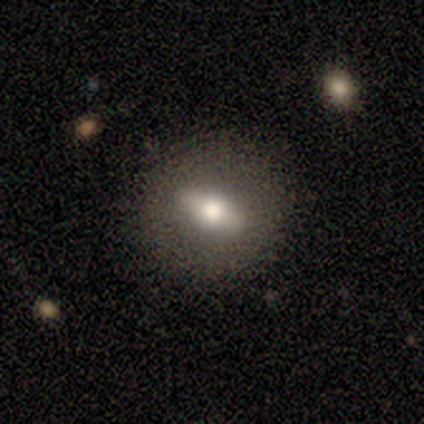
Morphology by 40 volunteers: This is possibly a featured or disk galaxy (52%). It is likely not viewed edge-on (62%). Bar: possibly strong (54%). Spiral arm pattern: clearly no (92%). Central bulge: likely moderate (77%). Merging: clearly none (82%).